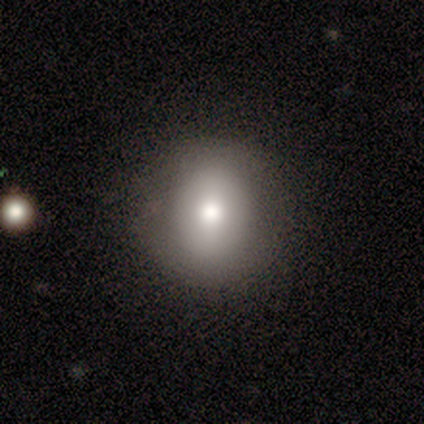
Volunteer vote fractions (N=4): Morphology: type=smooth (100%); roundness=round (100%); merging=none (75%).